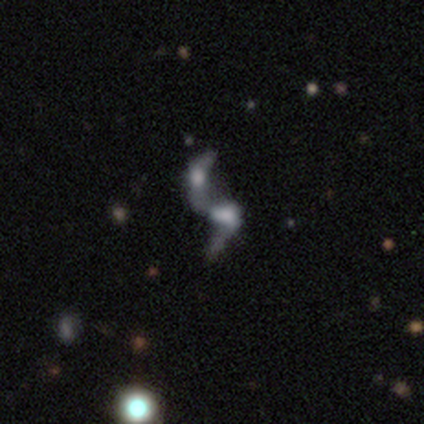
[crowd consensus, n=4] Volunteers were most divided on "bar" (2-way tie): weak: 50%, no: 50%, strong: 0%; "spiral arms" (2-way tie): yes: 50%, no: 50%. More confident: edge-on disk — no (100%); spiral winding — loose (100%); spiral arm count — can't tell (100%); bulge size — none (100%); merging — merger (100%); smooth or featured — featured or disk (50%).